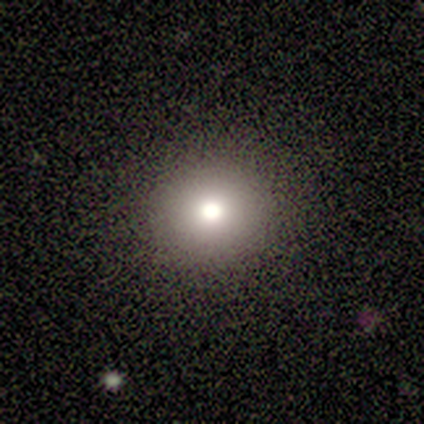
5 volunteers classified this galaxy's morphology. A smooth galaxy with no disk features (60%) that is round (67%).

Vote fractions:
- Smooth or featured? smooth: 60% / featured or disk: 40% / star or artifact: 0%
- How rounded? round: 67% / in between: 33% / cigar-shaped: 0%
- Merging? none: 100% / minor disturbance: 0% / major disturbance: 0% / merger: 0%